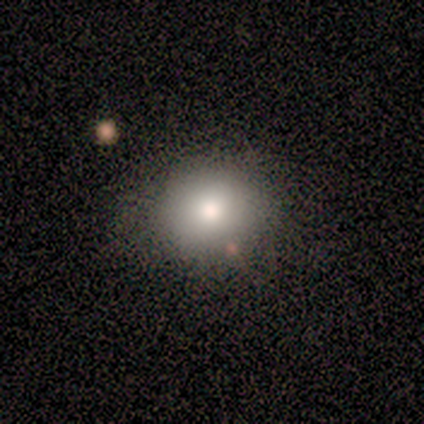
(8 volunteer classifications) smooth 88%, star or artifact 12%, featured or disk 0%. Down the decision tree: how rounded — round (43%, tied with in between); merging — minor disturbance (57%).